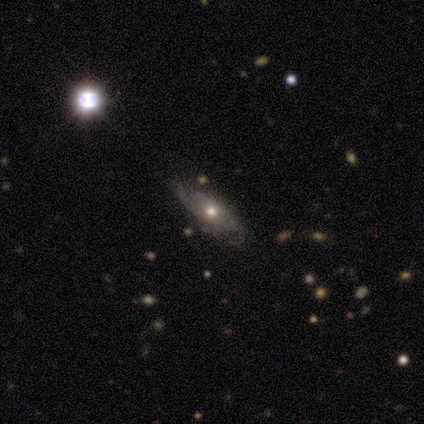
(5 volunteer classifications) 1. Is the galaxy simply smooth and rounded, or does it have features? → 80% featured or disk, 20% smooth, 0% star or artifact.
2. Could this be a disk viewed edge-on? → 75% no, 25% yes.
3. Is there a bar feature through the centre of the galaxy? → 67% no, 33% weak, 0% strong.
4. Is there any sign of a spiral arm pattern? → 67% no, 33% yes.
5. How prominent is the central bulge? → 67% small, 33% moderate, 0% dominant, 0% large, 0% none.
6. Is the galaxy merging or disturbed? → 80% none, 20% minor disturbance, 0% major disturbance, 0% merger.